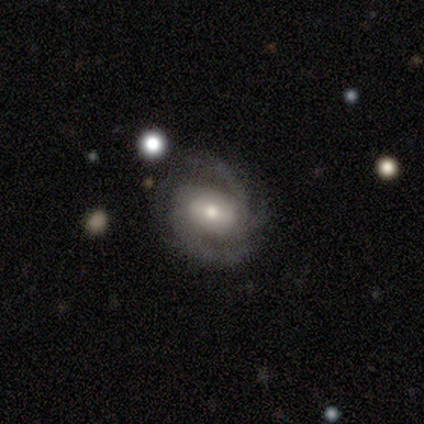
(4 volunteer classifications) A featured or disk galaxy (100%) with no bar (50%), 3 (50%) tight (50%) spiral arms (100%) and a moderate central bulge (50%). Merging: none (100%).